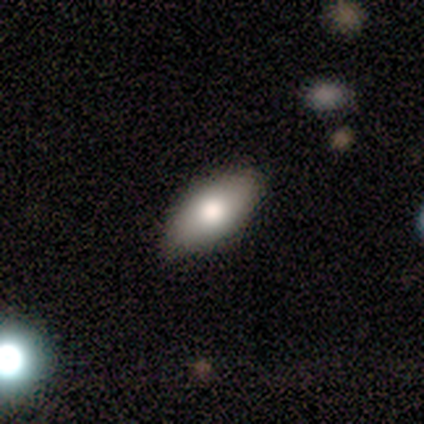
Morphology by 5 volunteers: A smooth galaxy with no disk features (100%) that is in between round and cigar-shaped (100%). Merging: none (60%).